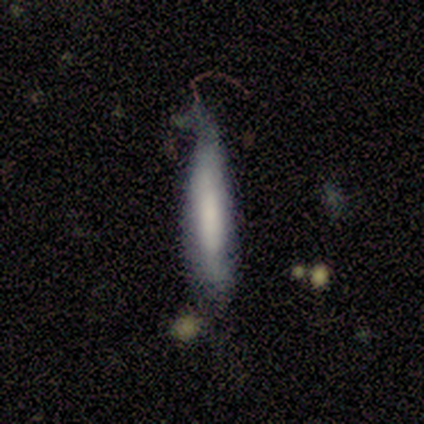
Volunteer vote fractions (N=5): Volunteers were most divided on "merging": minor disturbance: 40%, none: 20%, major disturbance: 20%, merger: 20%. More confident: how rounded — cigar-shaped (100%); smooth or featured — smooth (80%).